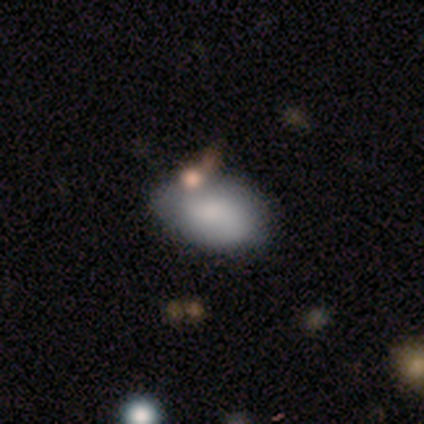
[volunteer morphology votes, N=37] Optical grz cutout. It shows a smooth galaxy with no disk features (78%) that is in between round and cigar-shaped (83%). Merging: none (30%).